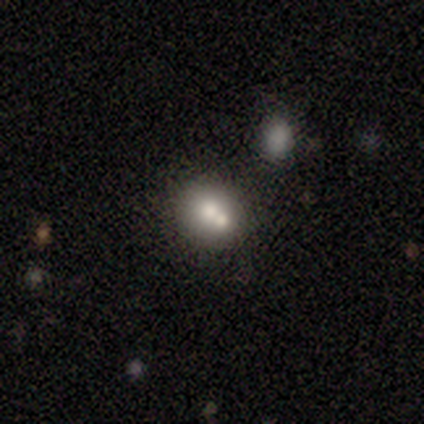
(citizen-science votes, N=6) A smooth galaxy with no disk features (83%) that is round (80%). Merging: none (50%).